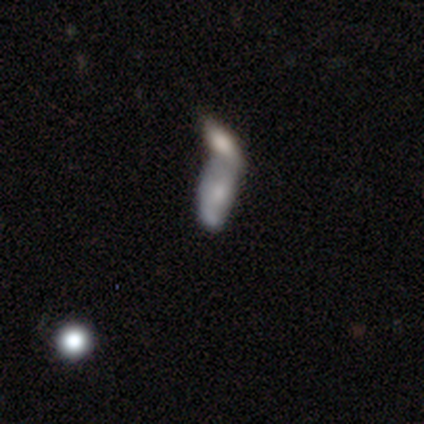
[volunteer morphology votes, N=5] This appears to be a featured or disk galaxy (60%) with no bar (67%), no spiral arms (67%) and a moderate central bulge (67%). Merging: merger (80%).